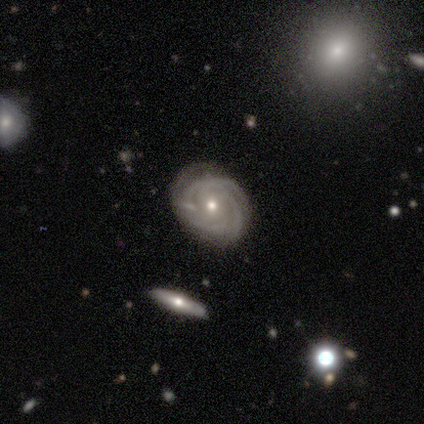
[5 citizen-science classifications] featured or disk 100%, smooth 0%, star or artifact 0%. Down the decision tree: edge-on disk — no (100%); bar — no (80%); spiral arms — yes (100%); spiral arm count — can't tell (60%); spiral winding — tight (80%); bulge size — moderate (60%); merging — none (100%).